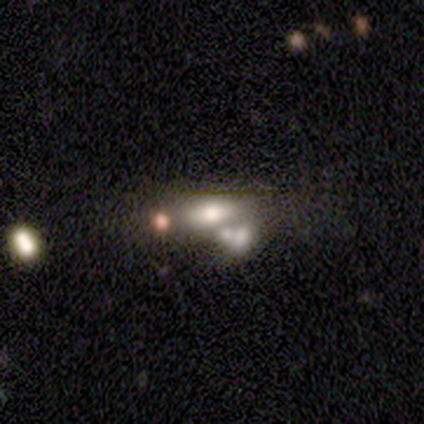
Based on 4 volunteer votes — Smooth or featured: smooth — 75% (featured or disk — 25%)
How rounded: in between — 100%
Merging: none — 50% (tied with merger — 50%)